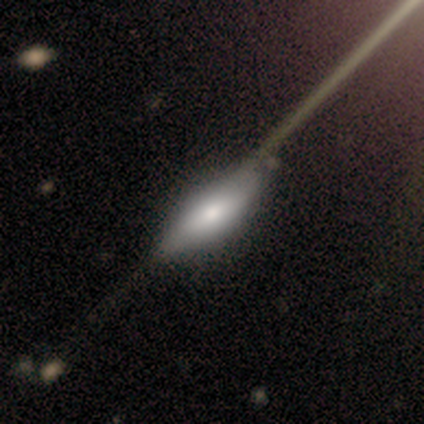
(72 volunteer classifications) Volunteers were most divided on "smooth or featured": smooth: 53%, featured or disk: 42%, star or artifact: 6%. More confident: merging — none (68%); how rounded — in between (66%).